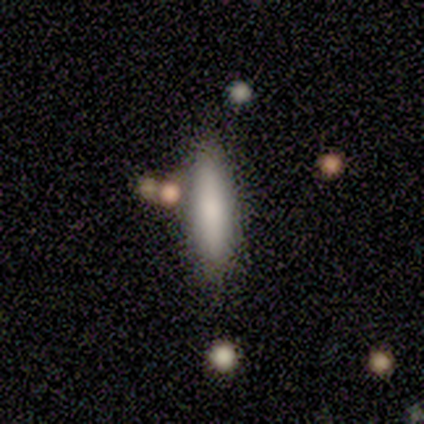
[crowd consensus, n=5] Smooth or featured?
  - smooth: 60% *
  - featured or disk: 40%
  - star or artifact: 0%
How rounded?
  - cigar-shaped: 67% *
  - in between: 33%
  - round: 0%
Merging?
  - none: 60% *
  - minor disturbance: 40%
  - major disturbance: 0%
  - merger: 0%